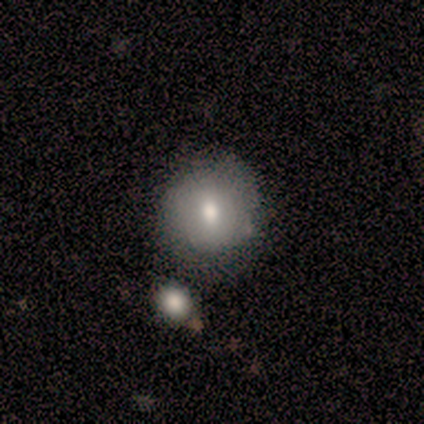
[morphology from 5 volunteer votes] Overall: smooth (60%; featured or disk 40%). How rounded: round (100%). Merging: none (80%).